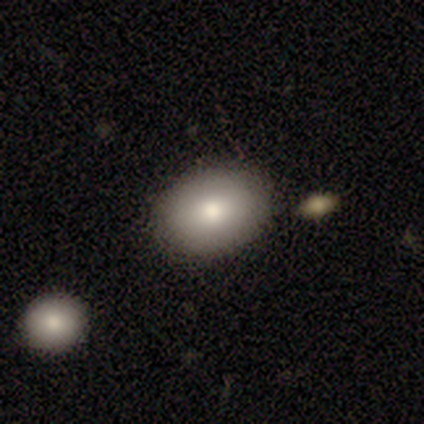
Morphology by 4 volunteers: A smooth galaxy with no disk features (100%) that is in between round and cigar-shaped (100%). Merging: none (100%).